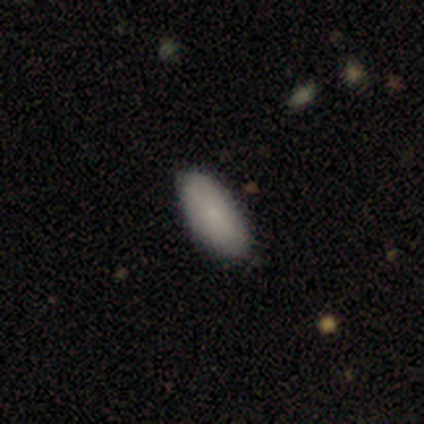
Smooth or featured?
  - smooth: 60% *
  - featured or disk: 20%
  - star or artifact: 20%
How rounded?
  - in between: 100% *
  - round: 0%
  - cigar-shaped: 0%
Merging?
  - none: 100% *
  - minor disturbance: 0%
  - major disturbance: 0%
  - merger: 0%